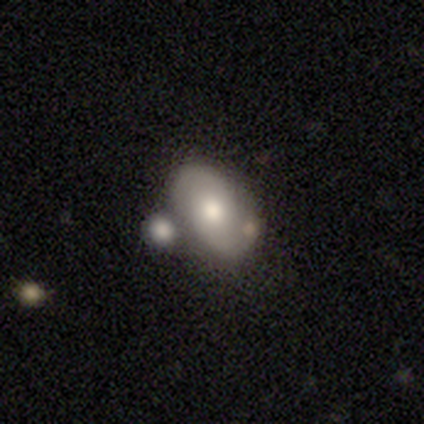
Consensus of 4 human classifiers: smooth_or_featured: smooth (p=0.50) [tied with: featured or disk p=0.50]
how_rounded: in between (p=1.00)
merging: none (p=0.75) [alt: merger p=0.25]